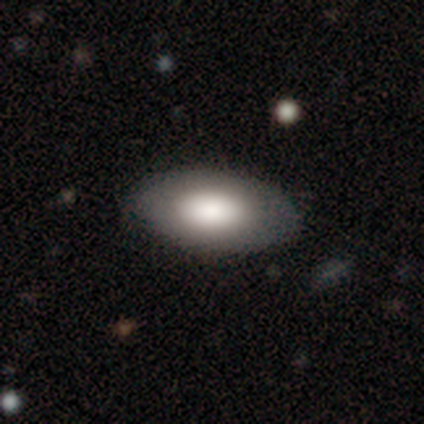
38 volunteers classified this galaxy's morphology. Smooth or featured? 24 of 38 (63%) said smooth. How rounded? 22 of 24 (92%) said in between. Merging? 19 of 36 (53%) said none.